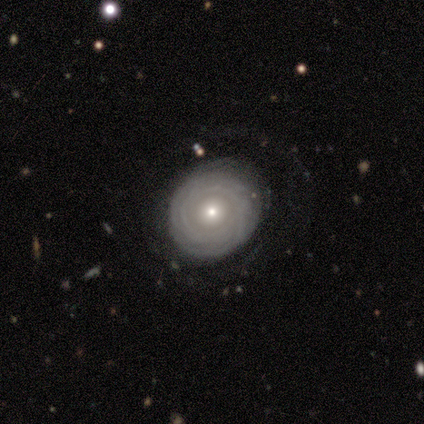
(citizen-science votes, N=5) Q: Smooth or featured?
A: featured or disk (80%); runner-up: star or artifact (20%)
Q: Edge-on disk?
A: no (100%)
Q: Bar?
A: no (100%)
Q: Spiral arms?
A: yes (100%)
Q: Spiral winding?
A: tight (100%)
Q: Spiral arm count?
A: can't tell (50%); runner-up: 3 (25%)
Q: Bulge size?
A: small (75%); runner-up: moderate (25%)
Q: Merging?
A: none (75%); runner-up: minor disturbance (25%)